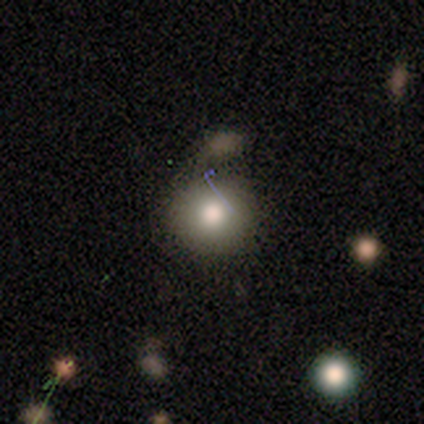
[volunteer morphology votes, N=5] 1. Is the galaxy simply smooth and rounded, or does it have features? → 80% smooth, 20% featured or disk, 0% star or artifact.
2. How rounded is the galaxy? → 75% round, 25% in between, 0% cigar-shaped.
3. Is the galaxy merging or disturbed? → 40% none (tied), 40% minor disturbance (tied), 20% major disturbance, 0% merger.